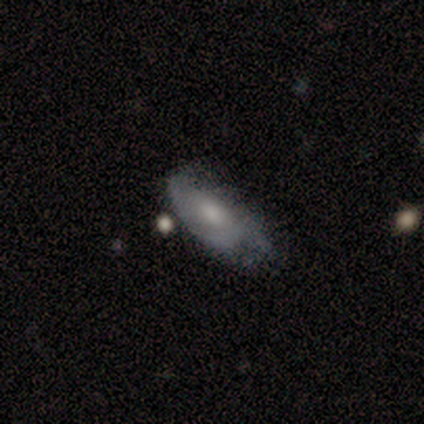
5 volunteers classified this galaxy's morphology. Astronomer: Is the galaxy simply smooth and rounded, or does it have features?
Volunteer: featured or disk — 60% (runner-up: smooth, 40%).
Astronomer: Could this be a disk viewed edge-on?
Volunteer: no — 100%.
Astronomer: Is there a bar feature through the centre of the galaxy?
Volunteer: no — 100%.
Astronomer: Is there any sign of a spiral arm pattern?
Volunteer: yes — 67%.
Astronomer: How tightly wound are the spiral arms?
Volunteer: tight — 100%.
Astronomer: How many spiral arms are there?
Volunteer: can't tell — 100%.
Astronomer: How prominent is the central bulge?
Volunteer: small — 100%.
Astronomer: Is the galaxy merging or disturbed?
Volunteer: minor disturbance — 60%.